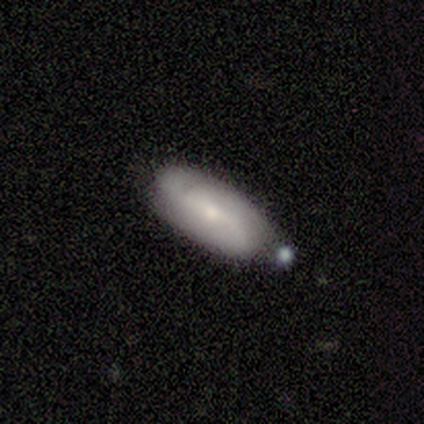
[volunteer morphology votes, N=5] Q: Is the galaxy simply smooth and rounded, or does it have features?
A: featured or disk — 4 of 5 (80%).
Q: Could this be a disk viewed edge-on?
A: no — 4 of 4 (100%).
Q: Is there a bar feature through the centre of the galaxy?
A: weak — 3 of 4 (75%).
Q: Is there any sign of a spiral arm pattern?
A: yes — 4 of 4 (100%).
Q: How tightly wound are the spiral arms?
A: loose — 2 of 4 (50%).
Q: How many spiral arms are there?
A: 2 — 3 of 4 (75%).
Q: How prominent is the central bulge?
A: small — 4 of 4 (100%).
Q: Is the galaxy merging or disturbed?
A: none — 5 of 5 (100%).